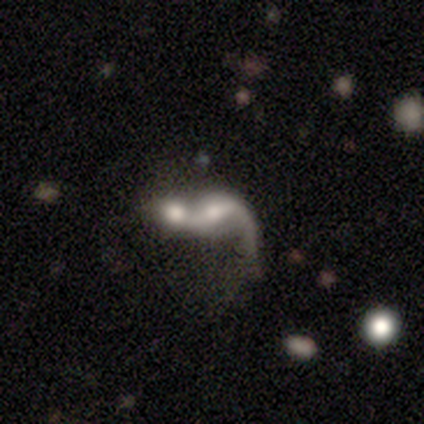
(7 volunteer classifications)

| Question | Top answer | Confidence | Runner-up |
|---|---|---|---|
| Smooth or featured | featured or disk | 86% | smooth (14%) |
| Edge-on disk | no | 100% | — |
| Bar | no | 50% | weak (33%) |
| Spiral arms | yes | 100% | — |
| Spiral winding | loose | 100% | — |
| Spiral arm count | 1 | 67% | 2 (33%) |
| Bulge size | moderate | 50% | dominant (17%) |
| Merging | merger | 86% | minor disturbance (14%) |